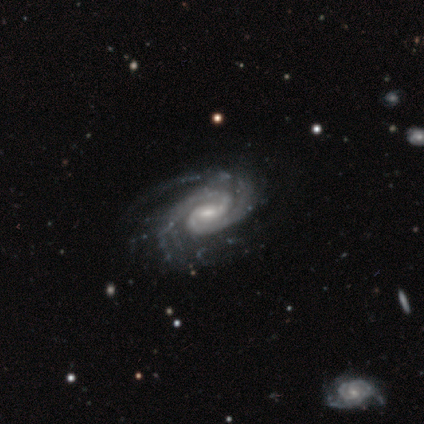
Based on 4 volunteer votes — Volunteers were most divided on "spiral winding" (2-way tie): tight: 50%, medium: 50%, loose: 0%; "bulge size" (2-way tie): moderate: 50%, small: 50%, dominant: 0%, large: 0%, none: 0%; "merging" (2-way tie): none: 50%, minor disturbance: 50%, major disturbance: 0%, merger: 0%. More confident: smooth or featured — featured or disk (100%); edge-on disk — no (100%); spiral arms — yes (100%); spiral arm count — 2 (100%); bar — strong (50%).